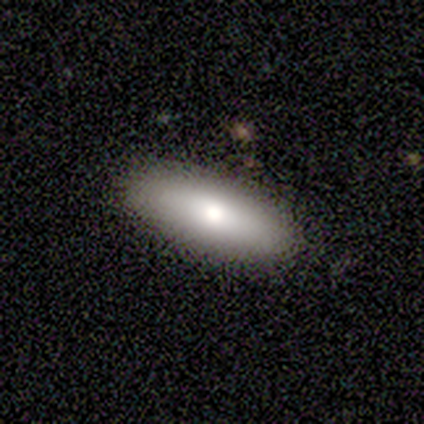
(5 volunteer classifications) This appears to be a smooth galaxy with no disk features (80%) that is in between round and cigar-shaped (100%). Merging: none (100%).